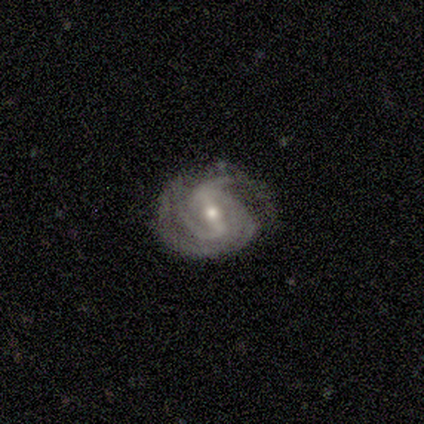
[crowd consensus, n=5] This appears to be a featured or disk galaxy (100%) with a strong bar (60%), tight (80%) spiral arms (100%) and a small central bulge (60%). Merging: none (80%).